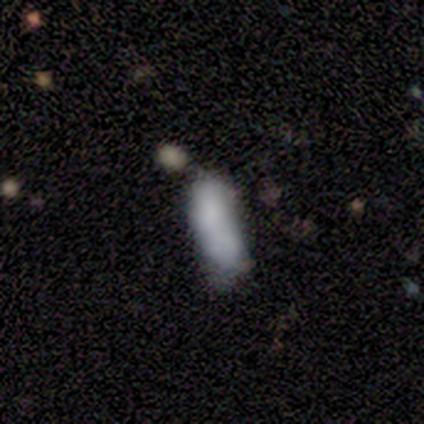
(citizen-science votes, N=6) A smooth galaxy with no disk features (50%, tied with featured or disk) that is cigar-shaped (100%).

Vote fractions:
- Smooth or featured? smooth: 50% (tied) / featured or disk: 50% (tied) / star or artifact: 0%
- How rounded? cigar-shaped: 100% / round: 0% / in between: 0%
- Merging? merger: 50% / none: 33% / minor disturbance: 17% / major disturbance: 0%